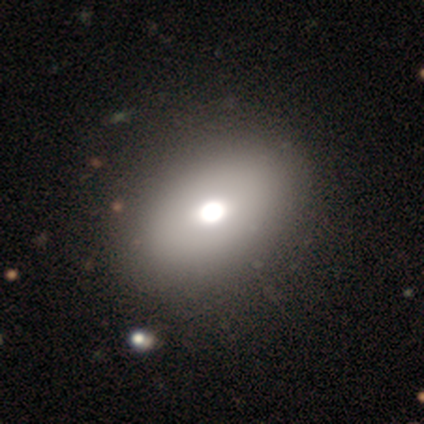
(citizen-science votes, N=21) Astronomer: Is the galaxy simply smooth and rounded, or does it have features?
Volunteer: smooth — 81%.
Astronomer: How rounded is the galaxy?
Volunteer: in between — 88%.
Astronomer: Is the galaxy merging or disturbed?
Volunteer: none — 32% (runner-up: merger, 16%).